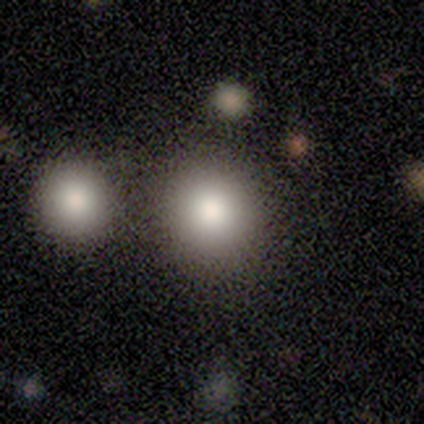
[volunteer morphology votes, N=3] Smooth or featured? 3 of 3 (100%) said smooth. How rounded? 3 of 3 (100%) said round. Merging? 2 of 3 (67%) said none.